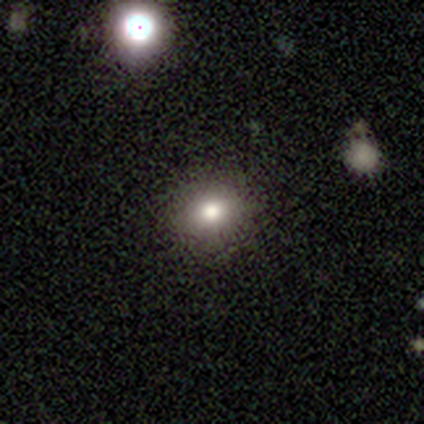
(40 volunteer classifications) smooth 75%, star or artifact 18%, featured or disk 8%. Down the decision tree: how rounded — round (90%); merging — none (94%).